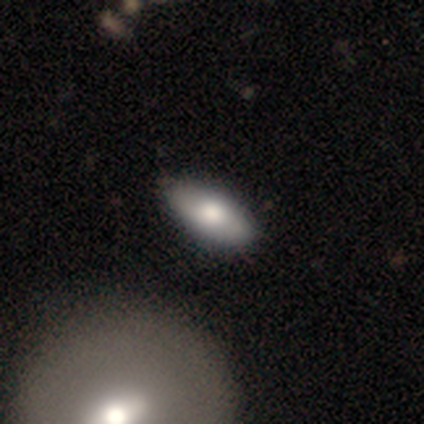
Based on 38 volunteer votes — Smooth or featured? smooth (68%)
How rounded? in between (81%)
Merging? none (68%)